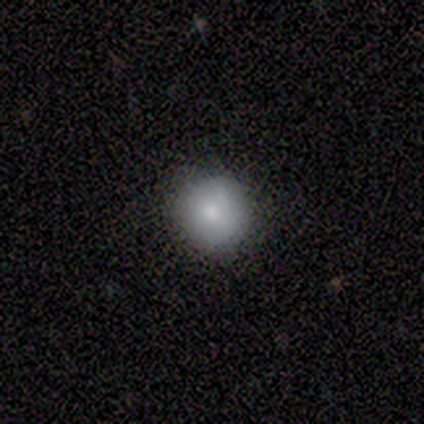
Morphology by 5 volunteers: Overall: smooth (60%; star or artifact 40%). How rounded: round (100%). Merging: none (100%).